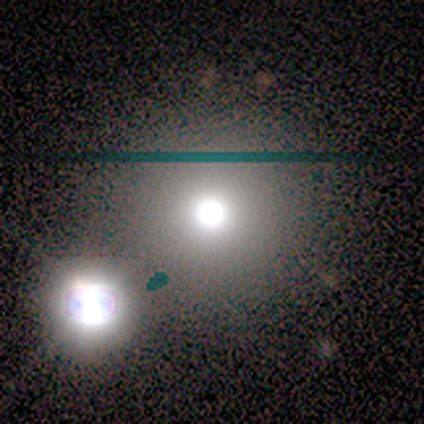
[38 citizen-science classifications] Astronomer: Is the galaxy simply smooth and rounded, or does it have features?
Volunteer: smooth — 63%.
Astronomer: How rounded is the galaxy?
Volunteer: round — 96%.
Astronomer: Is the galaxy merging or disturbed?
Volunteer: none — 48% (runner-up: merger, 34%).